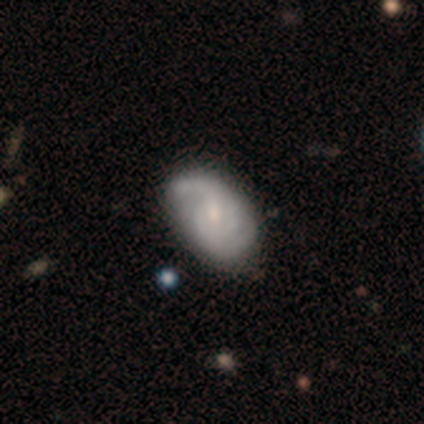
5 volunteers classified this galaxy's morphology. This appears to be a featured or disk galaxy (80%) with a weak bar (75%), 3 (50%) medium (75%) spiral arms (100%) and a moderate central bulge (50%, tied with small). Merging: none (40%, tied with minor disturbance).